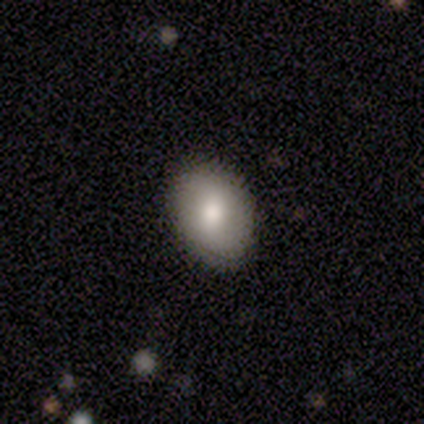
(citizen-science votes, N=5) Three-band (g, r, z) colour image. It shows a featured or disk galaxy (60%) with no bar (67%), 2 (100%) tight (100%) spiral arms (67%) and a moderate central bulge (67%). Merging: none (80%).